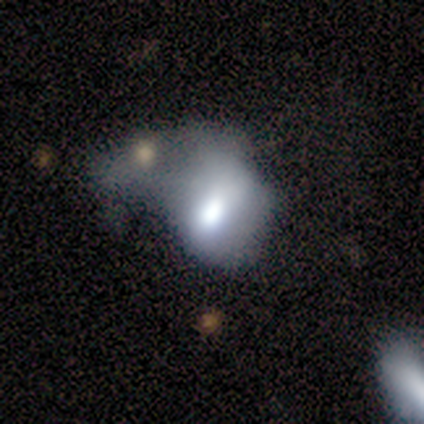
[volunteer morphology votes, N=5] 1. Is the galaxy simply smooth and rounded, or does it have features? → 100% smooth, 0% featured or disk, 0% star or artifact.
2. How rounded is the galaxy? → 60% in between, 40% round, 0% cigar-shaped.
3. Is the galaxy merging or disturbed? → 60% merger, 20% none, 20% major disturbance, 0% minor disturbance.